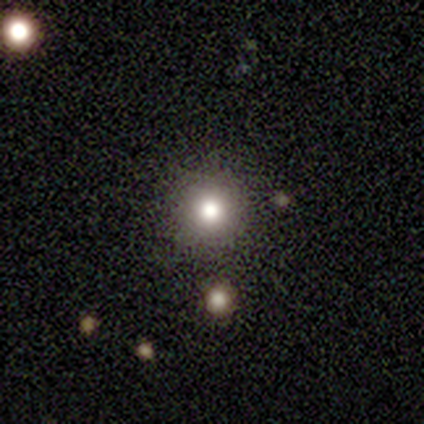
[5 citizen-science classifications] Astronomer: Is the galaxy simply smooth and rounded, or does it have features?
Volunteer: smooth — 80%.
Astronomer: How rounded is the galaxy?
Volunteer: round — 100%.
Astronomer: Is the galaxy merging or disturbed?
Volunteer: none — 100%.